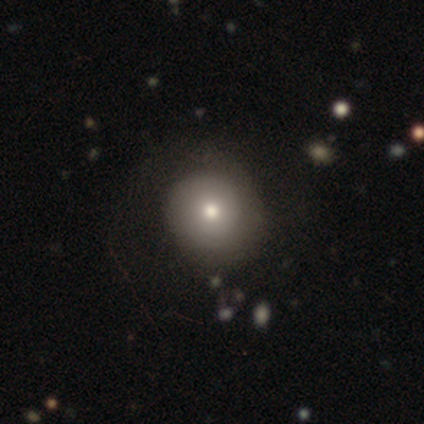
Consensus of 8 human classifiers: Q: Smooth or featured?
A: featured or disk (50%); runner-up: smooth (25%)
Q: Edge-on disk?
A: no (100%)
Q: Bar?
A: no (100%)
Q: Spiral arms?
A: no (75%); runner-up: yes (25%)
Q: Bulge size?
A: moderate (100%)
Q: Merging?
A: none (67%); runner-up: minor disturbance (17%)